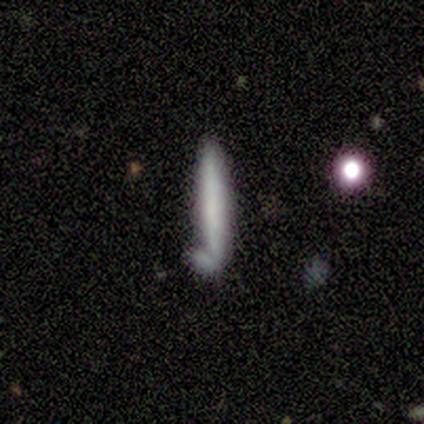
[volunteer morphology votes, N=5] This appears to be a smooth galaxy with no disk features (80%) that is cigar-shaped (100%). Merging: none (40%, tied with minor disturbance).